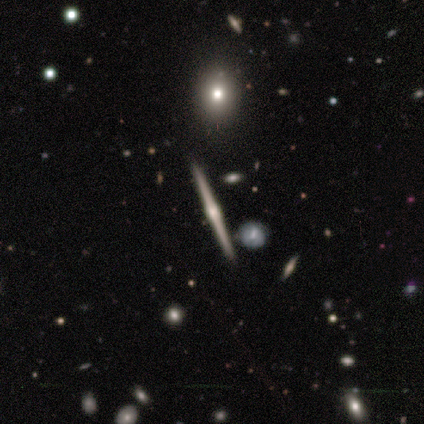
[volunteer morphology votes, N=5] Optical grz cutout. It shows a featured or disk galaxy (100%) viewed edge-on (100%) with a rounded central bulge (100%). Merging: none (100%).